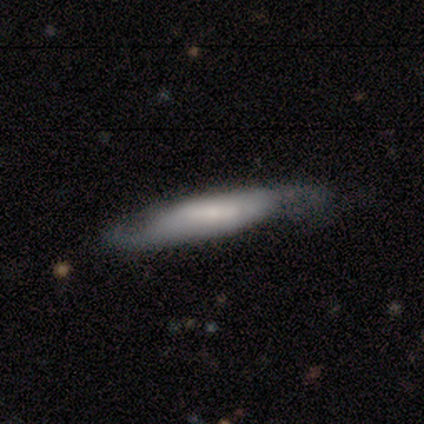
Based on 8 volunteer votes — Overall: featured or disk (88%). Edge-on disk: no (57%; yes 43%). Bar: no (50%; strong 25%). Spiral arms: yes (100%). Spiral arm count: 2 (75%). Spiral winding: medium (75%). Bulge size: large (50%; dominant 25%). Merging: minor disturbance (62%; none 38%).